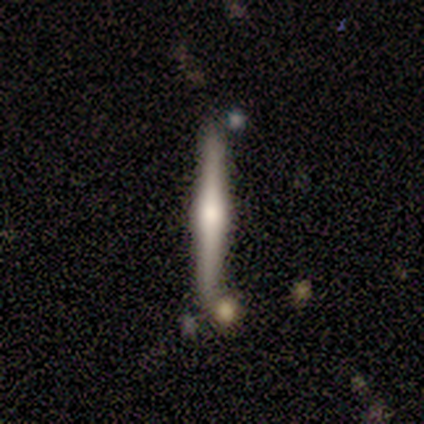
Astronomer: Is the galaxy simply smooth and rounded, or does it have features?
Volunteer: featured or disk — 75%.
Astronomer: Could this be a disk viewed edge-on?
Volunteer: yes — 100%.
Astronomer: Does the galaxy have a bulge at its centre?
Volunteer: rounded — 100%.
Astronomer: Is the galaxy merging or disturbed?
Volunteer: none — 75%.